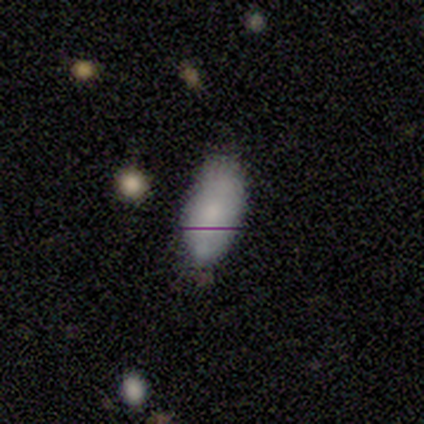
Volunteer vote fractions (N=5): Overall: smooth (60%; featured or disk 40%). How rounded: in between (100%). Merging: none (60%; minor disturbance 40%).